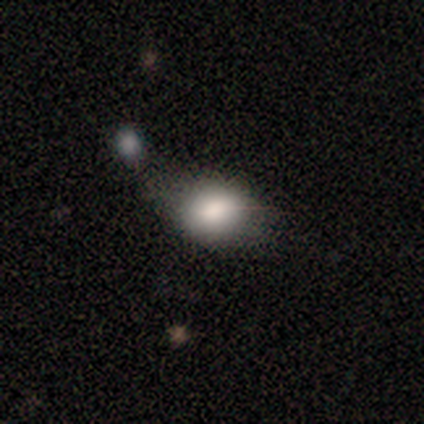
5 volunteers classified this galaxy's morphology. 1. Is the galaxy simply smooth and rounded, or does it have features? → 80% smooth, 20% star or artifact, 0% featured or disk.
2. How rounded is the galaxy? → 100% in between, 0% round, 0% cigar-shaped.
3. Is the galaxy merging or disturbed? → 50% merger, 25% none, 25% minor disturbance, 0% major disturbance.